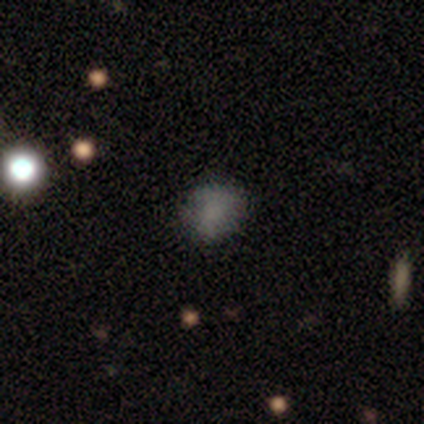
A smooth galaxy with no disk features (50%, tied with star or artifact) that is round (100%).

Vote fractions:
- Smooth or featured? smooth: 50% (tied) / star or artifact: 50% (tied) / featured or disk: 0%
- How rounded? round: 100% / in between: 0% / cigar-shaped: 0%
- Merging? none: 100% / minor disturbance: 0% / major disturbance: 0% / merger: 0%